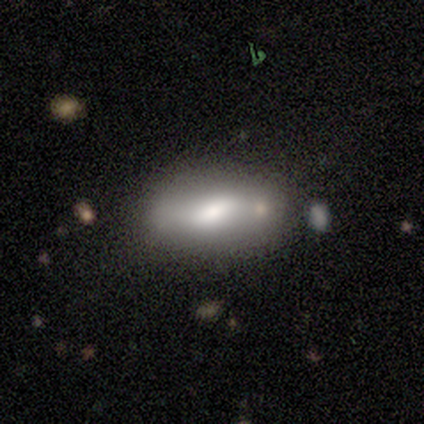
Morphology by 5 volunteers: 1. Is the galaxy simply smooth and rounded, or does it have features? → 80% smooth, 20% star or artifact, 0% featured or disk.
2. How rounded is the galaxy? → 100% in between, 0% round, 0% cigar-shaped.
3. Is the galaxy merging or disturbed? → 25% none (tied), 25% minor disturbance (tied), 25% major disturbance (tied), 25% merger (tied).